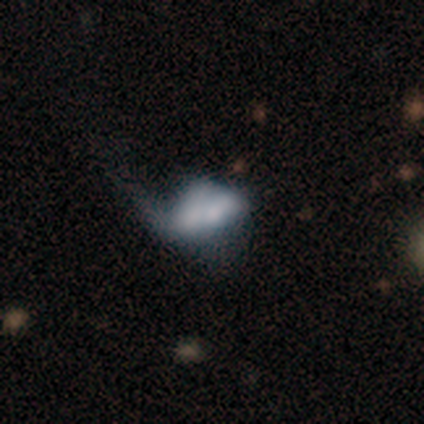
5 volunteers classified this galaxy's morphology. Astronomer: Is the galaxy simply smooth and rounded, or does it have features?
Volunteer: smooth — 80%.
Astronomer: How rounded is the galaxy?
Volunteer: in between — 75%.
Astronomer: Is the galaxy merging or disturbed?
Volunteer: major disturbance — 80%.